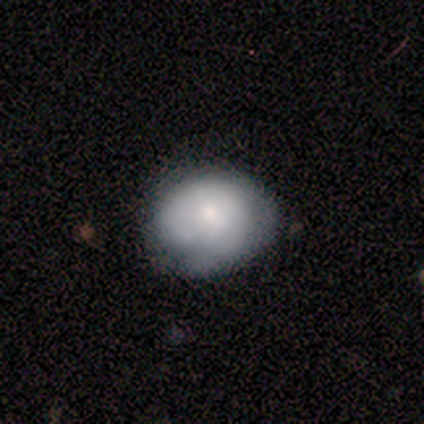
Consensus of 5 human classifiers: smooth 80%, star or artifact 20%, featured or disk 0%. Down the decision tree: how rounded — in between (75%); merging — none (50%, tied with minor disturbance).